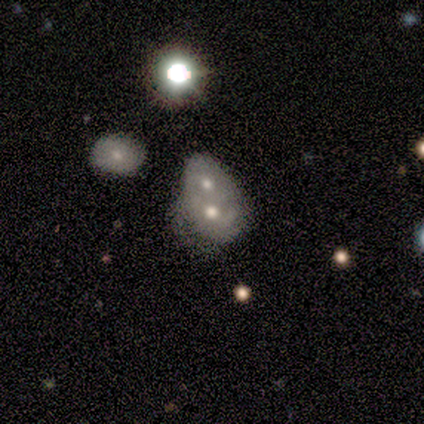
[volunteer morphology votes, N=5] smooth_or_featured: featured or disk (p=0.60) [alt: smooth p=0.20]
disk_edge_on: no (p=1.00)
bar: no (p=1.00)
has_spiral_arms: no (p=0.67) [alt: yes p=0.33]
bulge_size: small (p=0.67) [alt: moderate p=0.33]
merging: merger (p=1.00)